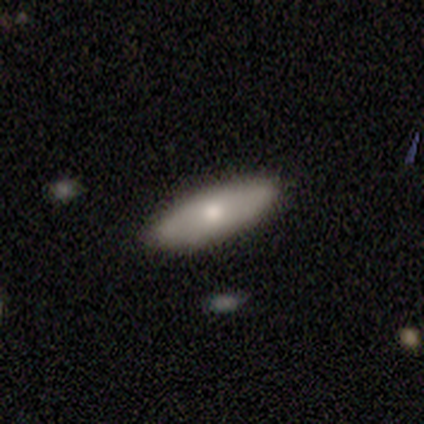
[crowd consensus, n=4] A smooth galaxy with no disk features (75%) that is in between round and cigar-shaped (67%). Merging: none (100%).